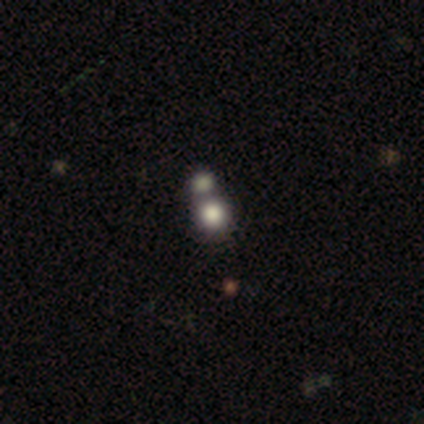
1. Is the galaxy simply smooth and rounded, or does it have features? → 80% smooth, 20% featured or disk, 0% star or artifact.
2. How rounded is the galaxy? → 50% round (tied), 50% in between (tied), 0% cigar-shaped.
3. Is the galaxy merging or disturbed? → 60% merger, 40% none, 0% minor disturbance, 0% major disturbance.